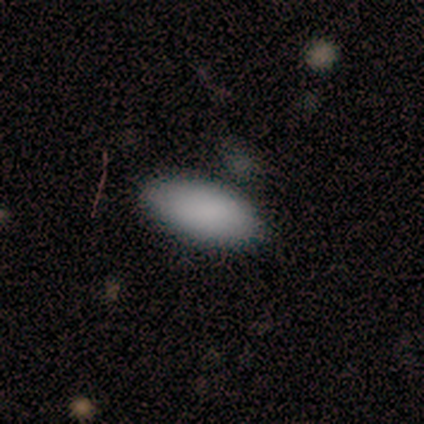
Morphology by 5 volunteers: Q: Smooth or featured?
A: smooth (100%)
Q: How rounded?
A: in between (100%)
Q: Merging?
A: none (80%); runner-up: minor disturbance (20%)